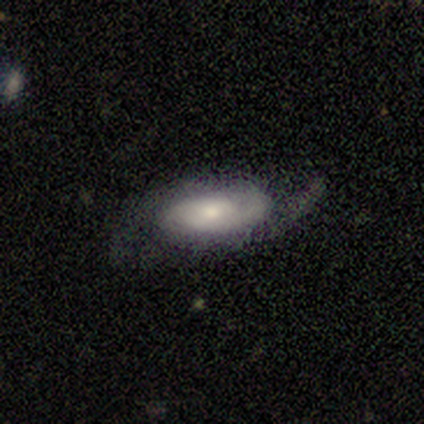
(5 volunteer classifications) Morphology: type=featured or disk (80%); edge-on=no (100%); bar=weak (100%); spiral arms=yes (100%); winding=medium (50%, tied with loose); arm count=2 (100%); bulge=moderate (50%, tied with small); merging=none (40%, tied with major disturbance).